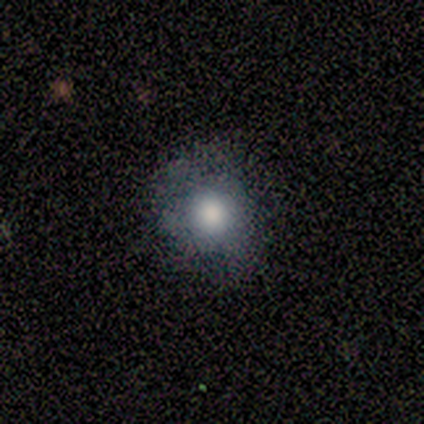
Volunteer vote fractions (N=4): Smooth or featured?
  - smooth: 100% *
  - featured or disk: 0%
  - star or artifact: 0%
How rounded?
  - round: 75% *
  - in between: 25%
  - cigar-shaped: 0%
Merging?
  - none: 100% *
  - minor disturbance: 0%
  - major disturbance: 0%
  - merger: 0%